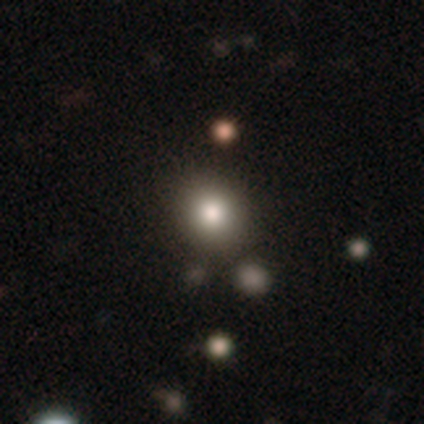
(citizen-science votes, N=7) Q: Smooth or featured?
A: smooth (71%); runner-up: featured or disk (14%)
Q: How rounded?
A: round (100%)
Q: Merging?
A: none (83%); runner-up: merger (17%)